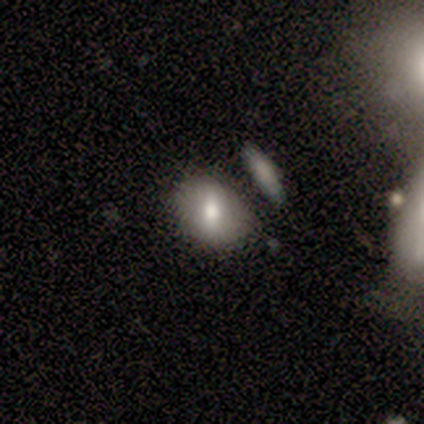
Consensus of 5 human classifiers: Smooth or featured?
  - smooth: 80% *
  - featured or disk: 20%
  - star or artifact: 0%
How rounded?
  - round: 50% * (tied)
  - in between: 50% * (tied)
  - cigar-shaped: 0%
Merging?
  - none: 60% *
  - minor disturbance: 20%
  - merger: 20%
  - major disturbance: 0%